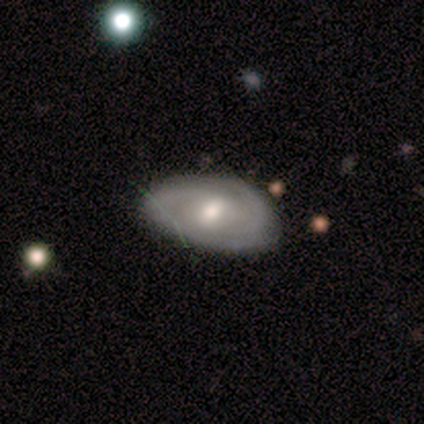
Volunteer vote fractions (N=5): Smooth or featured? 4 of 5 (80%) said featured or disk. Edge-on disk? 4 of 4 (100%) said no. Bar? 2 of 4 (50%, tied with no) said weak. Spiral arms? 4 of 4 (100%) said yes. Spiral winding? 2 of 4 (50%) said medium. Spiral arm count? 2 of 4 (50%) said can't tell. Bulge size? 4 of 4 (100%) said moderate. Merging? 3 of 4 (75%) said none.